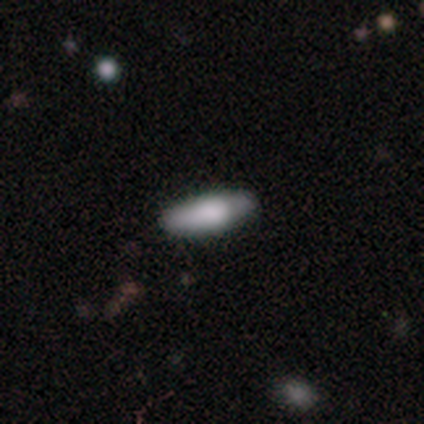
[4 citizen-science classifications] Q: Smooth or featured?
A: smooth (75%); runner-up: featured or disk (25%)
Q: How rounded?
A: cigar-shaped (67%); runner-up: in between (33%)
Q: Merging?
A: none (75%); runner-up: minor disturbance (25%)